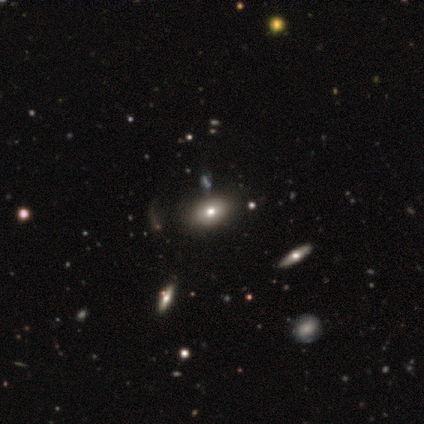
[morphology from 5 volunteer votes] Smooth or featured? smooth (80%)
How rounded? in between (75%)
Merging? none (80%)